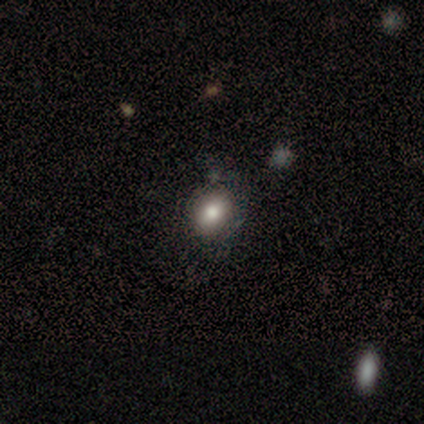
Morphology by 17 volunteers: Smooth or featured: smooth — 76% (star or artifact — 24%)
How rounded: in between — 54% (round — 46%)
Merging: none — 92% (minor disturbance — 8%)